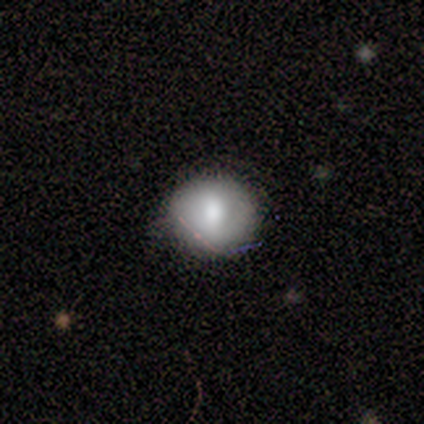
Smooth or featured?
  - smooth: 60% *
  - featured or disk: 20%
  - star or artifact: 20%
How rounded?
  - round: 100% *
  - in between: 0%
  - cigar-shaped: 0%
Merging?
  - none: 100% *
  - minor disturbance: 0%
  - major disturbance: 0%
  - merger: 0%